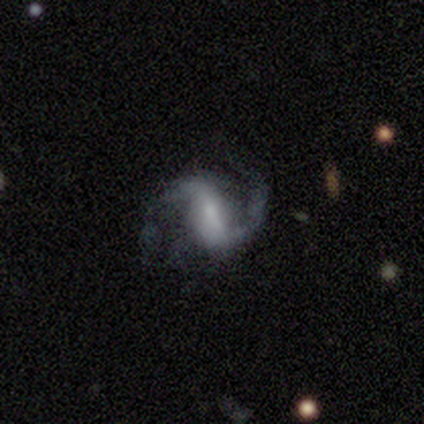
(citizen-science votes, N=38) Q: Smooth or featured?
A: featured or disk (84%); runner-up: smooth (8%)
Q: Edge-on disk?
A: no (94%); runner-up: yes (6%)
Q: Bar?
A: strong (50%); runner-up: weak (43%)
Q: Spiral arms?
A: yes (100%)
Q: Spiral winding?
A: medium (50%); tied with: loose (50%)
Q: Spiral arm count?
A: 2 (97%); runner-up: 3 (3%)
Q: Bulge size?
A: small (43%); runner-up: moderate (37%)
Q: Merging?
A: none (66%); runner-up: major disturbance (20%)